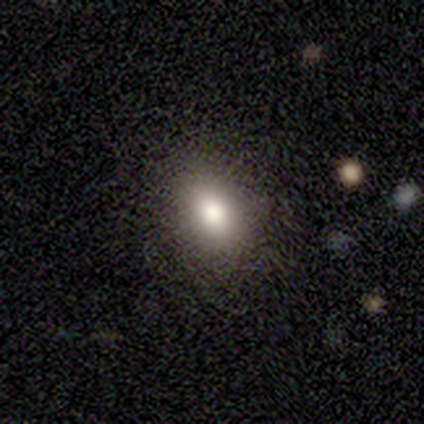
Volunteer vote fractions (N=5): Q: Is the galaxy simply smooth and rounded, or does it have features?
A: smooth — 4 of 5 (80%).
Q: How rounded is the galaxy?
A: round — 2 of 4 (50%, tied with in between).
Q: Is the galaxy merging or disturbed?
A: none — 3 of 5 (60%).